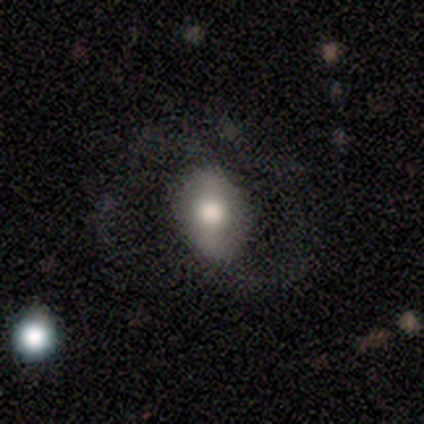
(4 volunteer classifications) smooth-or-featured: featured or disk: 75% | smooth: 25% | star or artifact: 0%
  disk-edge-on: no: 67% | yes: 33%
    bar: weak: 50% (tied) | no: 50% (tied) | strong: 0%
    has-spiral-arms: yes: 100% | no: 0%
      spiral-winding: loose: 100% | tight: 0% | medium: 0%
      spiral-arm-count: 2: 100% | 1: 0% | 3: 0% | 4: 0% | more than 4: 0% | can't tell: 0%
    bulge-size: moderate: 50% (tied) | small: 50% (tied) | dominant: 0% | large: 0% | none: 0%
  merging: none: 50% | minor disturbance: 25% | major disturbance: 25% | merger: 0%